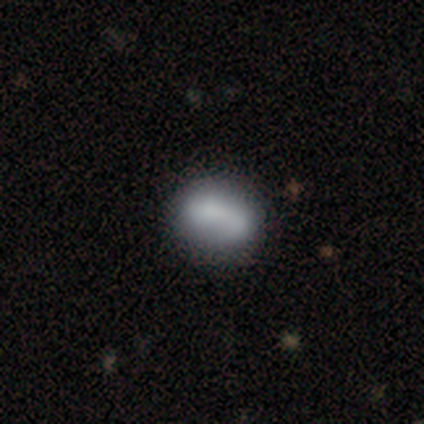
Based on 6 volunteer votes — Morphology: type=smooth (67%); roundness=round (50%, tied with in between); merging=none (33%, tied with minor disturbance and merger).